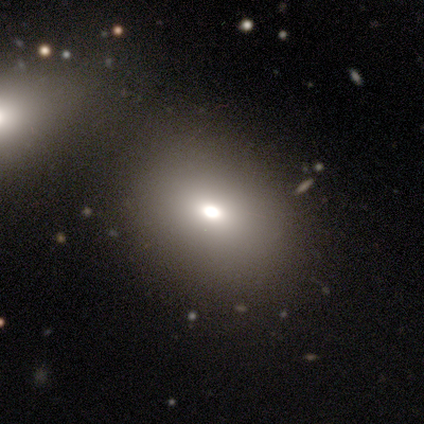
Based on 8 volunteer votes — A smooth galaxy with no disk features (75%) that is in between round and cigar-shaped (83%). Merging: none (43%, tied with merger).